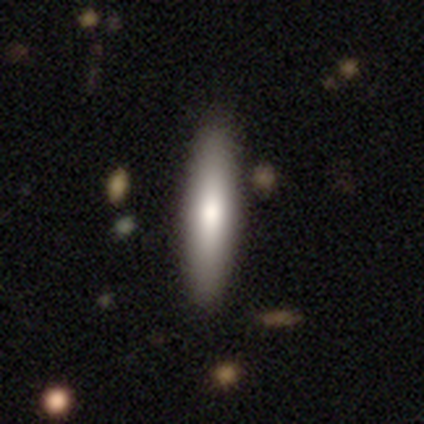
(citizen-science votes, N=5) Q: Smooth or featured?
A: featured or disk (60%); runner-up: smooth (40%)
Q: Edge-on disk?
A: yes (100%)
Q: Edge-on bulge?
A: rounded (100%)
Q: Merging?
A: none (100%)